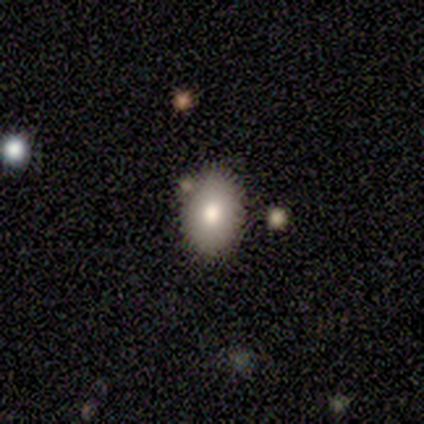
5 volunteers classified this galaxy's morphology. Smooth or featured: featured or disk — 60% (smooth — 40%)
Edge-on disk: no — 100%
Bar: no — 100%
Spiral arms: no — 100%
Bulge size: moderate — 67% (small — 33%)
Merging: minor disturbance — 60% (none — 40%)